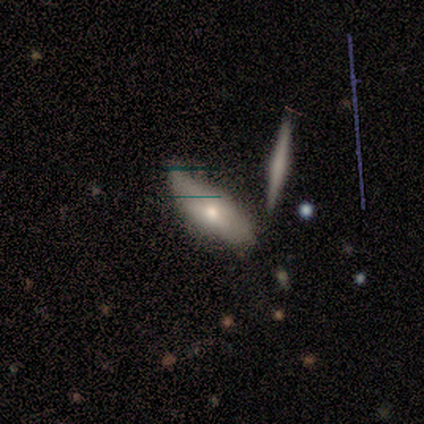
Smooth or featured: featured or disk — 60% (smooth — 40%)
Edge-on disk: yes — 67% (no — 33%)
Edge-on bulge: none — 50% (tied with rounded — 50%)
Merging: none — 60% (minor disturbance — 40%)